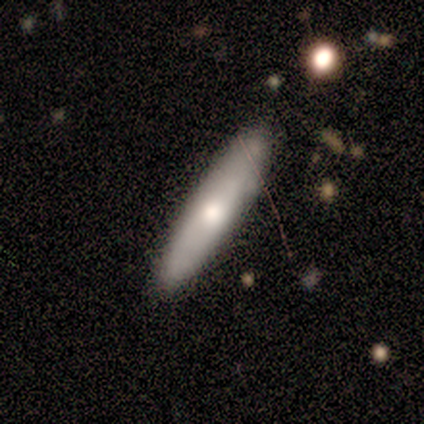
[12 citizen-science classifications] Q: Smooth or featured?
A: smooth (100%)
Q: How rounded?
A: cigar-shaped (75%); runner-up: in between (25%)
Q: Merging?
A: none (100%)